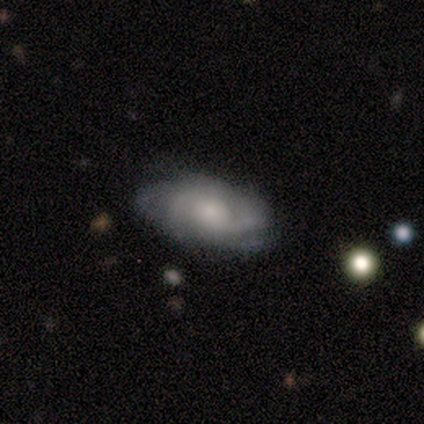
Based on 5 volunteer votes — A featured or disk galaxy (80%) with a weak bar (75%), 3 (50%, tied with can't tell) tight (100%) spiral arms (100%) and a moderate central bulge (75%).

Vote fractions:
- Smooth or featured? featured or disk: 80% / star or artifact: 20% / smooth: 0%
- Edge-on disk? no: 100% / yes: 0%
- Bar? weak: 75% / no: 25% / strong: 0%
- Spiral arms? yes: 100% / no: 0%
- Spiral winding? tight: 100% / medium: 0% / loose: 0%
- Spiral arm count? 3: 50% (tied) / can't tell: 50% (tied) / 1: 0% / 2: 0% / 4: 0% / more than 4: 0%
- Bulge size? moderate: 75% / large: 25% / dominant: 0% / small: 0% / none: 0%
- Merging? none: 50% (tied) / minor disturbance: 50% (tied) / major disturbance: 0% / merger: 0%